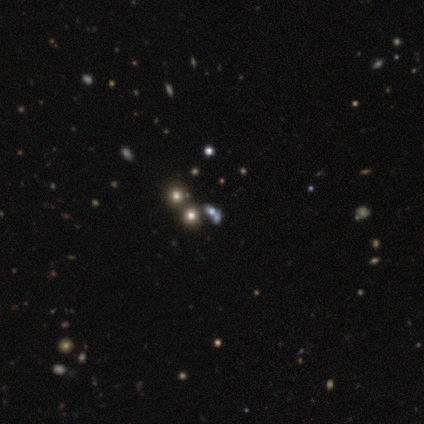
smooth_or_featured: featured or disk (p=0.40) [tied with: star or artifact p=0.40]
disk_edge_on: no (p=1.00)
bar: no (p=1.00)
has_spiral_arms: no (p=1.00)
bulge_size: dominant (p=0.50) [tied with: moderate p=0.50]
merging: none (p=0.67) [alt: merger p=0.33]